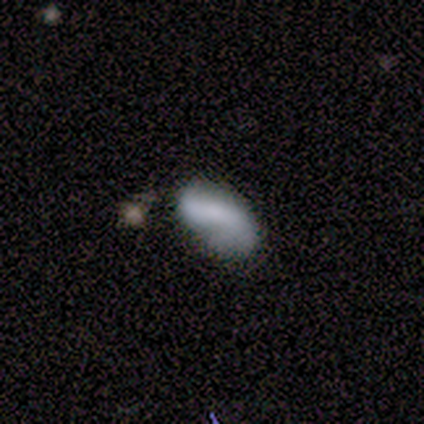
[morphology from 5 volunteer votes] A smooth galaxy with no disk features (40%, tied with featured or disk) that is in between round and cigar-shaped (100%).

Vote fractions:
- Smooth or featured? smooth: 40% (tied) / featured or disk: 40% (tied) / star or artifact: 20%
- How rounded? in between: 100% / round: 0% / cigar-shaped: 0%
- Merging? none: 75% / minor disturbance: 25% / major disturbance: 0% / merger: 0%